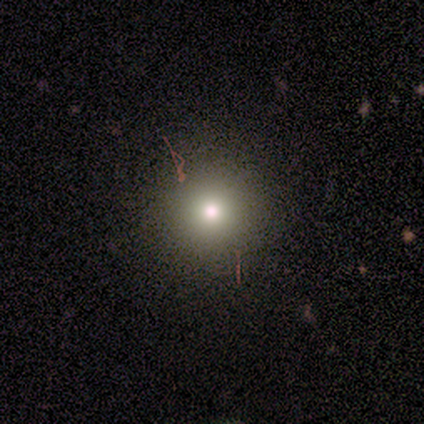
smooth 80%, star or artifact 20%, featured or disk 0%. Down the decision tree: how rounded — round (75%); merging — none (75%).